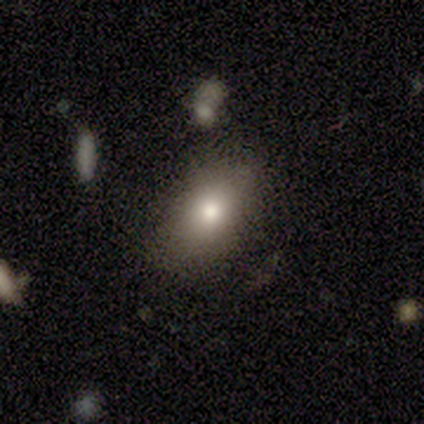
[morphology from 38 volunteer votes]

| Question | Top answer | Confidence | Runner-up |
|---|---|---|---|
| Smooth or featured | smooth | 76% | featured or disk (18%) |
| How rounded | in between | 86% | round (14%) |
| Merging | none | 75% | minor disturbance (22%) |